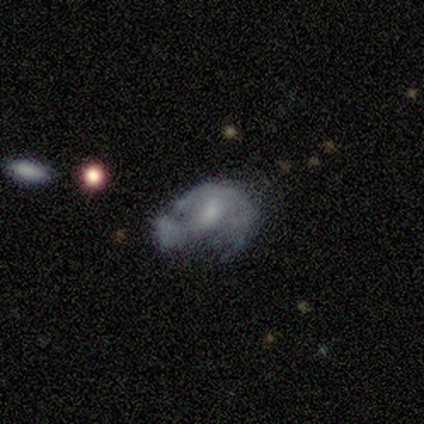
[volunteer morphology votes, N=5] A featured or disk galaxy (100%) with no bar (100%), no spiral arms (80%) and a moderate central bulge (40%, tied with none).

Vote fractions:
- Smooth or featured? featured or disk: 100% / smooth: 0% / star or artifact: 0%
- Edge-on disk? no: 100% / yes: 0%
- Bar? no: 100% / strong: 0% / weak: 0%
- Spiral arms? no: 80% / yes: 20%
- Bulge size? moderate: 40% (tied) / none: 40% (tied) / small: 20% / dominant: 0% / large: 0%
- Merging? major disturbance: 40% (tied) / merger: 40% (tied) / none: 20% / minor disturbance: 0%